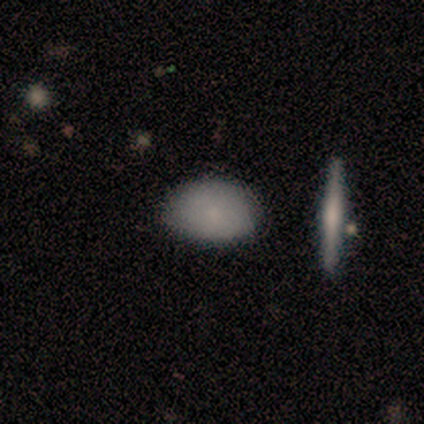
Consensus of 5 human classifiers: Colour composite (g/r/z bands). It shows a smooth galaxy with no disk features (60%) that is in between round and cigar-shaped (100%). Merging: none (80%).